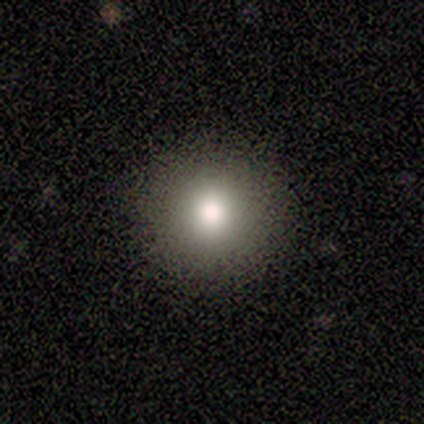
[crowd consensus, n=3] This is likely a smooth galaxy (67%). How rounded: possibly round (50%, tied with in between). Merging: clearly none (100%).